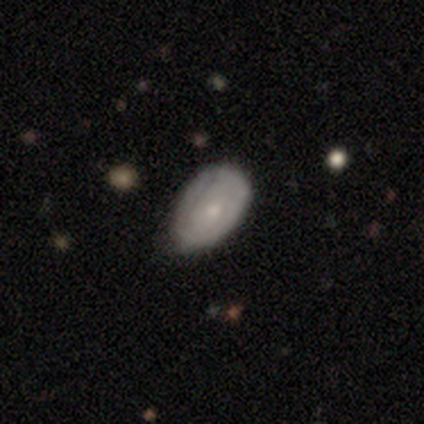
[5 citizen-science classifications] smooth-or-featured: featured or disk: 80% | smooth: 20% | star or artifact: 0%
  disk-edge-on: no: 100% | yes: 0%
    bar: no: 100% | strong: 0% | weak: 0%
    has-spiral-arms: no: 100% | yes: 0%
    bulge-size: small: 75% | moderate: 25% | dominant: 0% | large: 0% | none: 0%
  merging: none: 40% (tied) | minor disturbance: 40% (tied) | major disturbance: 20% | merger: 0%